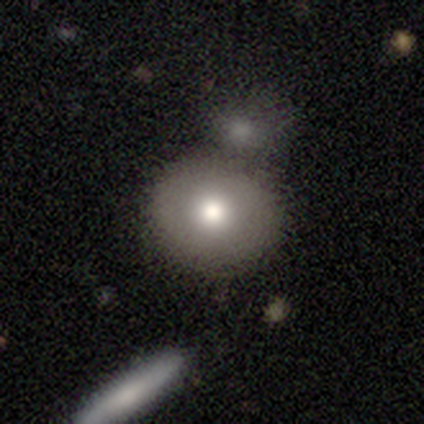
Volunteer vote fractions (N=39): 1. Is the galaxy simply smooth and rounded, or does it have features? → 85% smooth, 10% featured or disk, 5% star or artifact.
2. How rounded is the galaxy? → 82% round, 18% in between, 0% cigar-shaped.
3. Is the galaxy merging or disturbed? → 41% none (tied), 41% merger (tied), 16% minor disturbance, 3% major disturbance.